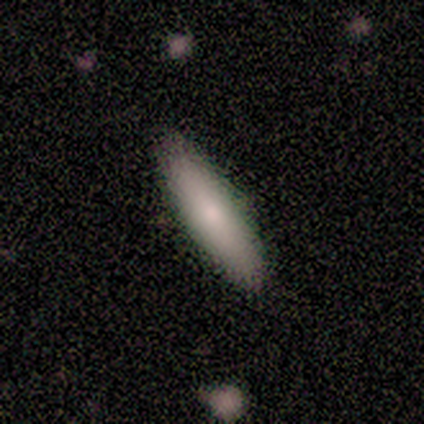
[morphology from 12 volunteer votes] This is clearly a smooth galaxy (83%). How rounded: likely cigar-shaped (60%). Merging: clearly none (80%).